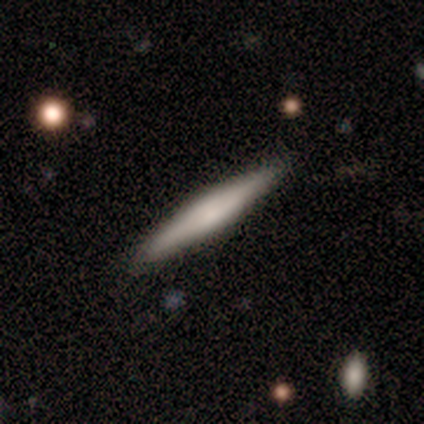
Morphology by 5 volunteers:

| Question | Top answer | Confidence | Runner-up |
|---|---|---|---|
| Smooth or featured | smooth | 60% | featured or disk (40%) |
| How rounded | cigar-shaped | 100% | — |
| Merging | none | 100% | — |